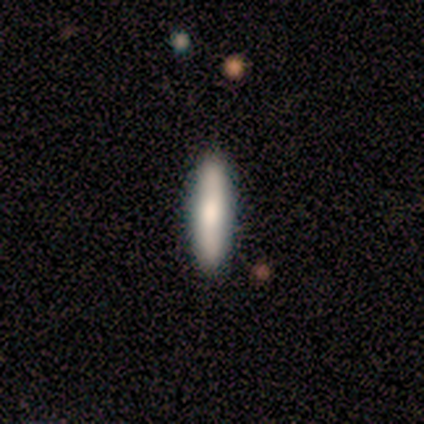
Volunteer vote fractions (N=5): Q: Smooth or featured?
A: smooth (60%); runner-up: featured or disk (40%)
Q: How rounded?
A: cigar-shaped (67%); runner-up: in between (33%)
Q: Merging?
A: none (100%)